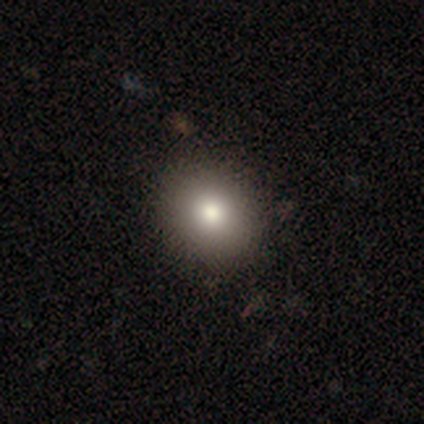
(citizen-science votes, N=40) Overall: smooth (82%). How rounded: round (70%; in between 30%). Merging: none (59%).